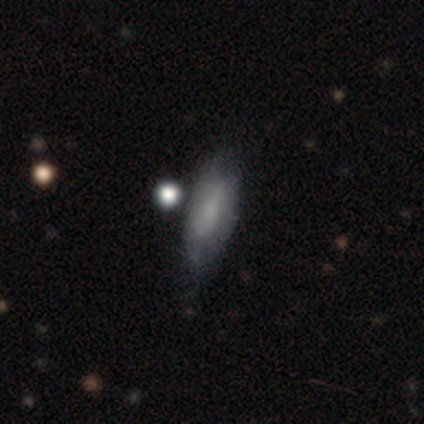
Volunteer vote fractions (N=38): Q: Smooth or featured?
A: smooth (58%); runner-up: featured or disk (34%)
Q: How rounded?
A: in between (64%); runner-up: cigar-shaped (36%)
Q: Merging?
A: none (66%); runner-up: minor disturbance (29%)